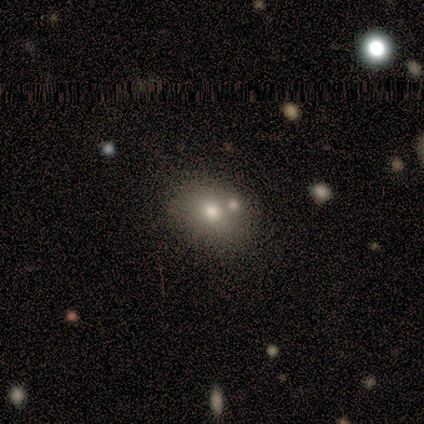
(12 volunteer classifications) Morphology: type=smooth (58%); roundness=round (57%); merging=none (56%).